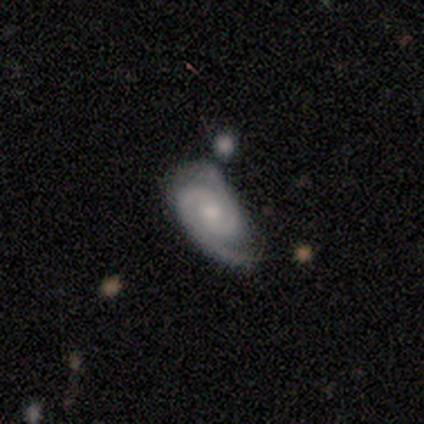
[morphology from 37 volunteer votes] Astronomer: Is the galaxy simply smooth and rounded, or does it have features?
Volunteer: featured or disk — 86%.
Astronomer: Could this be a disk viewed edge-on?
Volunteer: no — 94%.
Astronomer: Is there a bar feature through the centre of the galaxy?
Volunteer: no — 80%.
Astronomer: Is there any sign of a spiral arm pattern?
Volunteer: yes — 100%.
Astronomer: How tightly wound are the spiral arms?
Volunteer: tight — 63%.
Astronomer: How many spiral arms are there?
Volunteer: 2 — 87%.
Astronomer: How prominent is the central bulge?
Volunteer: small — 57% (runner-up: moderate, 37%).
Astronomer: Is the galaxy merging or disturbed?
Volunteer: none — 66%.